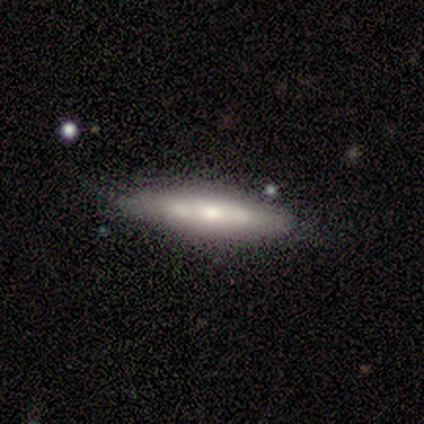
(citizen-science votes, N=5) This appears to be a featured or disk galaxy (80%) viewed edge-on (100%) with a rounded central bulge (75%). Merging: none (50%, tied with minor disturbance).